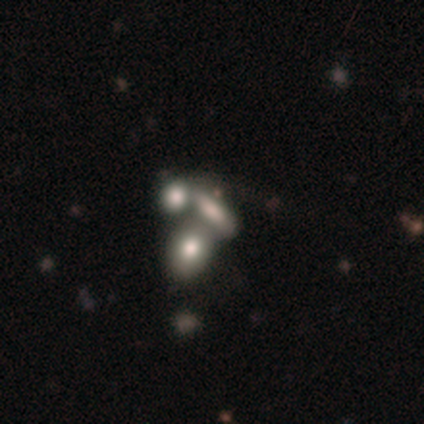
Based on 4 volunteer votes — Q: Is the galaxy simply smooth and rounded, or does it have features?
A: smooth — 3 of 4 (75%).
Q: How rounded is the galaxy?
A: in between — 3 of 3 (100%).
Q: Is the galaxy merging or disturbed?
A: none — 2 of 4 (50%).